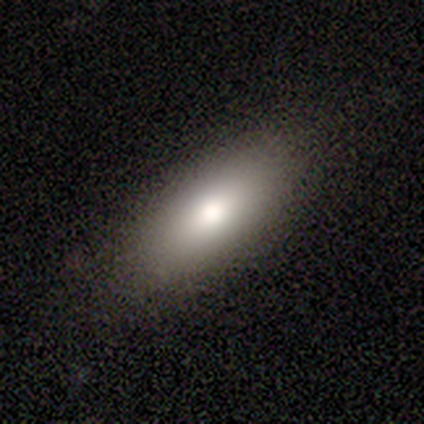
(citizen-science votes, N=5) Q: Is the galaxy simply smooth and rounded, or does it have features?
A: smooth — 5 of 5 (100%).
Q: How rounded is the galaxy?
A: in between — 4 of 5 (80%).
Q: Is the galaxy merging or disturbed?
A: none — 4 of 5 (80%).